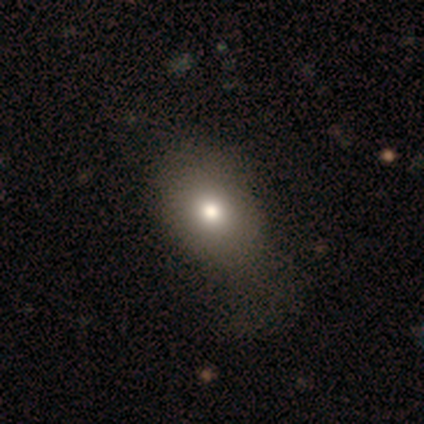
A smooth galaxy with no disk features (100%) that is round (50%, tied with in between). Merging: minor disturbance (100%).